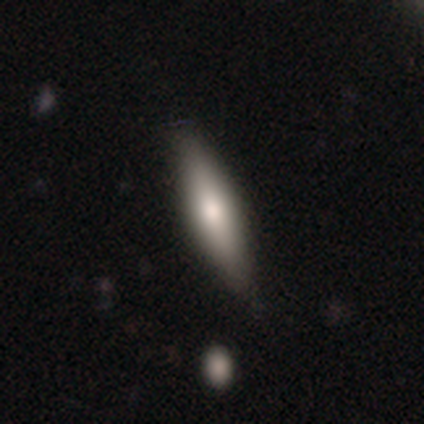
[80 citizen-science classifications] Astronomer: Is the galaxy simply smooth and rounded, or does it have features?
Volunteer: smooth — 62%.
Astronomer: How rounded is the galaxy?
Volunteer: cigar-shaped — 68%.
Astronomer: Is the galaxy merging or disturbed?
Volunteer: none — 43%.